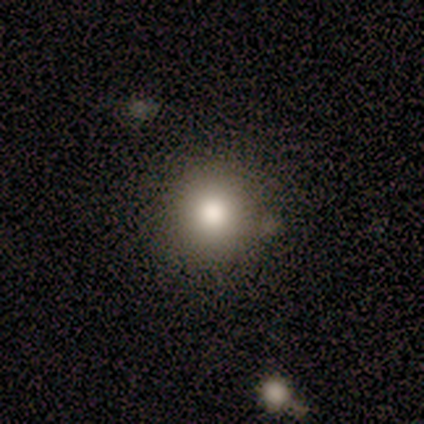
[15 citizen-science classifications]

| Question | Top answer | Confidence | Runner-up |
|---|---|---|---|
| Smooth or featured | smooth | 73% | featured or disk (13%) |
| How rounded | round | 82% | in between (18%) |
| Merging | none | 77% | minor disturbance (15%) |